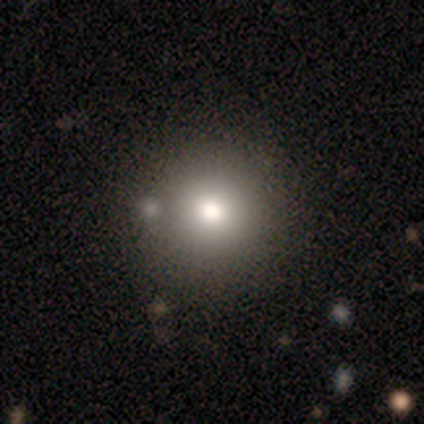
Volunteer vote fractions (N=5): smooth 80%, star or artifact 20%, featured or disk 0%. Down the decision tree: how rounded — round (100%); merging — none (100%).